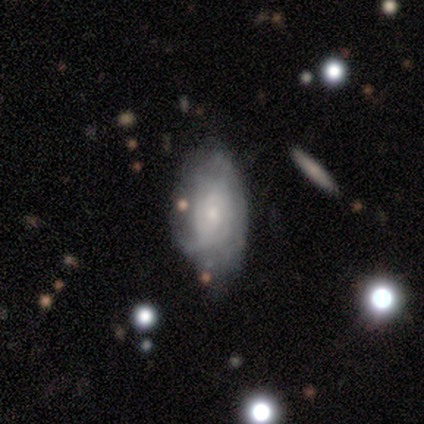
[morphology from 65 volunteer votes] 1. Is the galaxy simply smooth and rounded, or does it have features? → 66% featured or disk, 26% smooth, 8% star or artifact.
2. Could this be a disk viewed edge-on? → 100% no, 0% yes.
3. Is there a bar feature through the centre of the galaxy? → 86% no, 14% weak, 0% strong.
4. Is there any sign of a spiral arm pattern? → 77% yes, 23% no.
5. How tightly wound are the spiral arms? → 61% tight, 21% medium, 18% loose.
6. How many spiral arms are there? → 64% can't tell, 21% 2, 9% 3, 6% 1, 0% 4, 0% more than 4.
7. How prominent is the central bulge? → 60% small, 30% moderate, 9% none, 0% dominant, 0% large.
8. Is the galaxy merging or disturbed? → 53% none, 37% minor disturbance, 8% major disturbance, 2% merger.